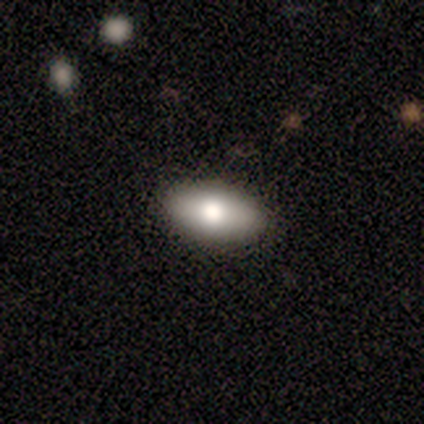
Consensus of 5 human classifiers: A smooth galaxy with no disk features (80%) that is in between round and cigar-shaped (100%).

Vote fractions:
- Smooth or featured? smooth: 80% / featured or disk: 20% / star or artifact: 0%
- How rounded? in between: 100% / round: 0% / cigar-shaped: 0%
- Merging? none: 60% / minor disturbance: 20% / merger: 20% / major disturbance: 0%